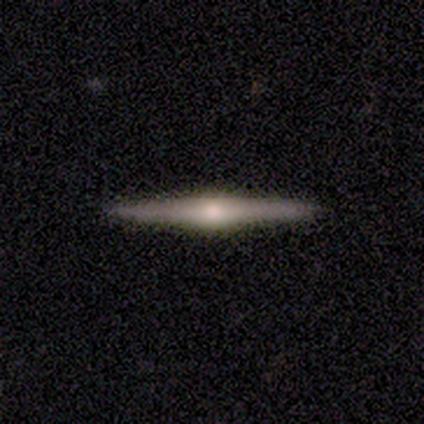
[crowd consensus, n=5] Smooth or featured? featured or disk (60%)
Edge-on disk? yes (100%)
Edge-on bulge? rounded (100%)
Merging? none (80%)